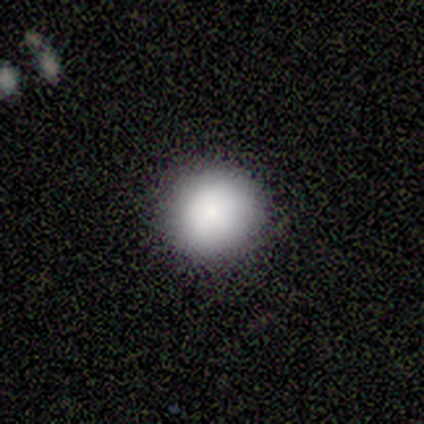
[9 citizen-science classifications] Smooth or featured? smooth (100%)
How rounded? round (100%)
Merging? none (100%)